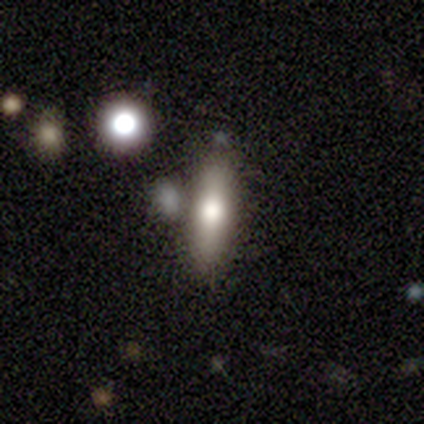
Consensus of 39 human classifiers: Volunteers were most divided on "how rounded": cigar-shaped: 71%, in between: 29%, round: 0%. More confident: smooth or featured — smooth (72%); merging — none (59%).